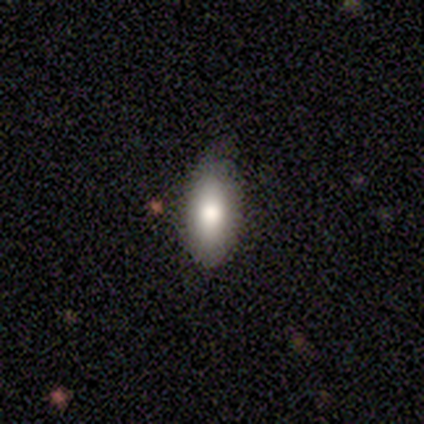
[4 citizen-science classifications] Smooth or featured: smooth — 100%
How rounded: in between — 100%
Merging: none — 100%